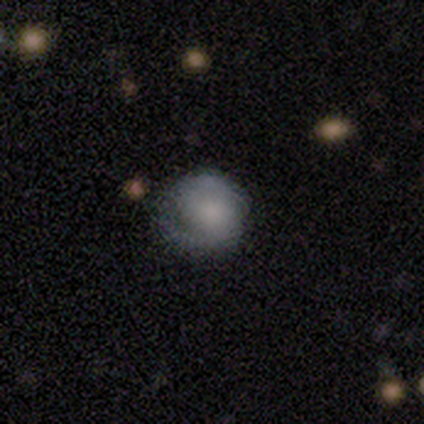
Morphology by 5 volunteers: Smooth or featured: featured or disk — 60% (smooth — 20%)
Edge-on disk: no — 100%
Bar: no — 67% (strong — 33%)
Spiral arms: yes — 67% (no — 33%)
Spiral winding: tight — 100%
Spiral arm count: 2 — 100%
Bulge size: small — 67% (moderate — 33%)
Merging: none — 75% (minor disturbance — 25%)